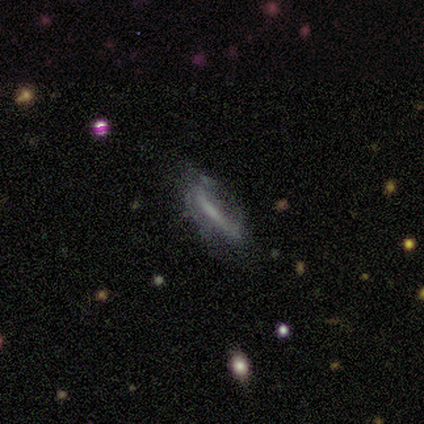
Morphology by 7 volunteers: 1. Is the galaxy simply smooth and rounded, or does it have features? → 57% star or artifact, 43% smooth, 0% featured or disk.